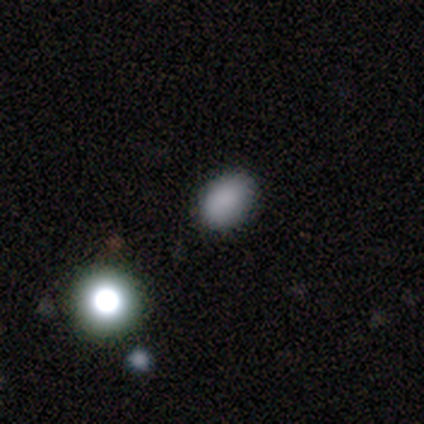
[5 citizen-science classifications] Smooth or featured? smooth (80%)
How rounded? in between (75%)
Merging? none (75%)